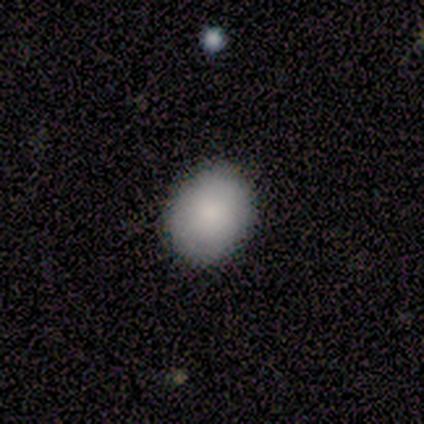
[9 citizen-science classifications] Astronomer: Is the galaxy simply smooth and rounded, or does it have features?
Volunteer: smooth — 89%.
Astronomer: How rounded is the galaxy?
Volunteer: in between — 62%.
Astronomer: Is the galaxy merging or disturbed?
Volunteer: none — 100%.